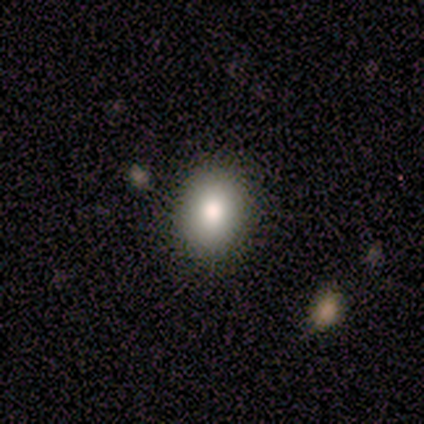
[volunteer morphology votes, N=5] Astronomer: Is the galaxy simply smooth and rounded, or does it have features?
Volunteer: smooth — 100%.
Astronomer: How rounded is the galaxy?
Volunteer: in between — 60% (runner-up: round, 40%).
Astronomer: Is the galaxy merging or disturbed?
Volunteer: none — 100%.